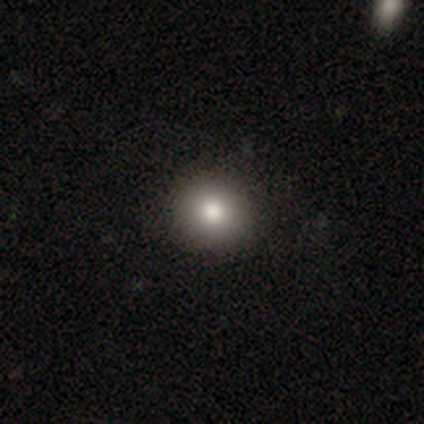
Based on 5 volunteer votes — Overall: smooth (80%). How rounded: round (100%). Merging: none (100%).